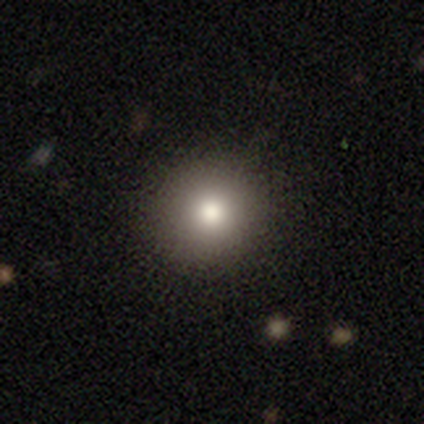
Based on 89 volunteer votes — Smooth or featured? 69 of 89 (78%) said smooth. How rounded? 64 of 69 (93%) said round. Merging? 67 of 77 (87%) said none.